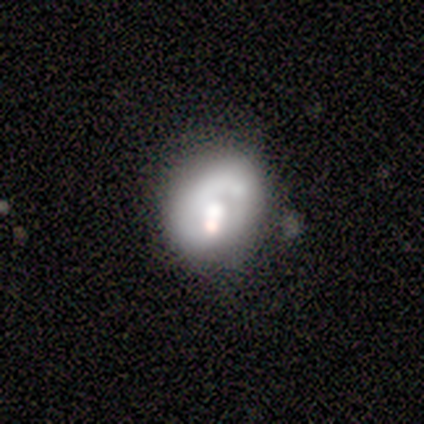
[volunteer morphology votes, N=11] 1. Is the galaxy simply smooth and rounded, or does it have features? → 64% featured or disk, 27% smooth, 9% star or artifact.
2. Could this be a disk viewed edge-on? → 100% no, 0% yes.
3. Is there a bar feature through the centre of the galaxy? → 100% no, 0% strong, 0% weak.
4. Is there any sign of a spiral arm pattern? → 86% no, 14% yes.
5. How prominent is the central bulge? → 86% moderate, 14% dominant, 0% large, 0% small, 0% none.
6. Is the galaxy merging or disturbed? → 50% minor disturbance, 30% none, 20% merger, 0% major disturbance.